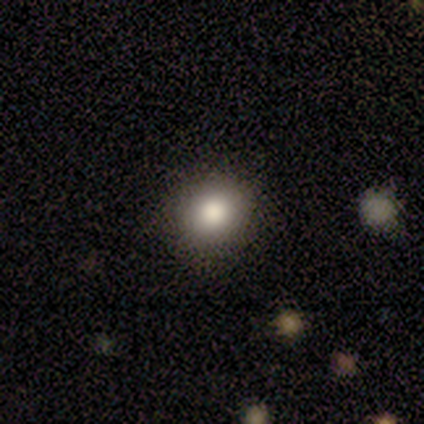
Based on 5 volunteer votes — This is clearly a smooth galaxy (100%). How rounded: clearly round (100%). Merging: clearly none (80%).